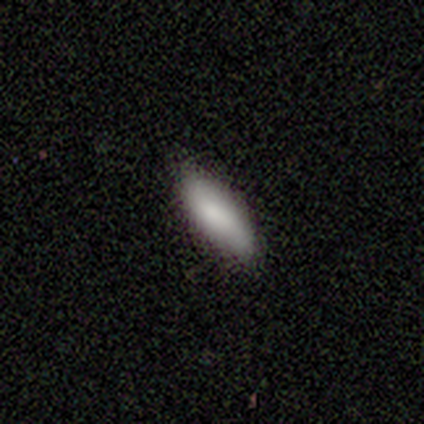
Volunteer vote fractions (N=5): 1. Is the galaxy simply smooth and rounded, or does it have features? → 100% smooth, 0% featured or disk, 0% star or artifact.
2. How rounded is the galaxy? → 100% in between, 0% round, 0% cigar-shaped.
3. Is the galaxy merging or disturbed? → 100% none, 0% minor disturbance, 0% major disturbance, 0% merger.